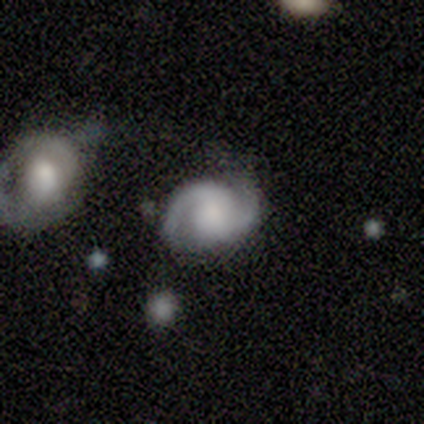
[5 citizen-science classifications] Morphology: type=featured or disk (100%); edge-on=no (100%); bar=no (80%); spiral arms=yes (100%); winding=medium (60%); arm count=2 (100%); bulge=moderate (40%); merging=none (60%).